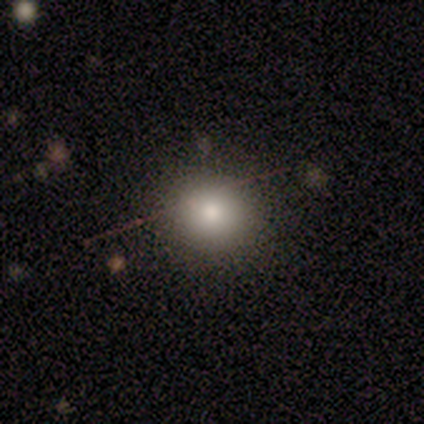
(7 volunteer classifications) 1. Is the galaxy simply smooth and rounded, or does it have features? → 100% smooth, 0% featured or disk, 0% star or artifact.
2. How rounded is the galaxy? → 86% round, 14% in between, 0% cigar-shaped.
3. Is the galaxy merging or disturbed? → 86% none, 14% minor disturbance, 0% major disturbance, 0% merger.